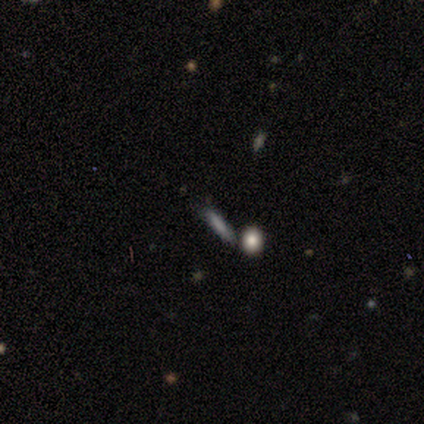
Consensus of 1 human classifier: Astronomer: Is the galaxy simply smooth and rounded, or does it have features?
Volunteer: smooth — 100%.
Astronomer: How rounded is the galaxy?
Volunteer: cigar-shaped — 100%.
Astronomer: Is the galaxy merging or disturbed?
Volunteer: none — 100%.